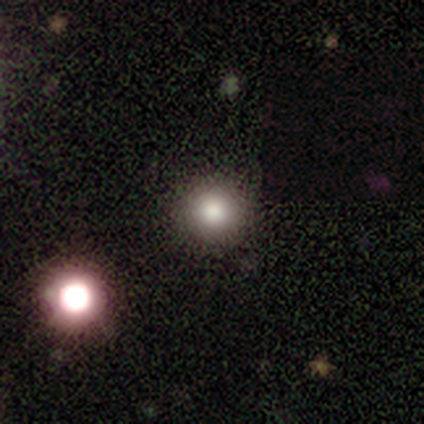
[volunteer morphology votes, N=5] This appears to be a smooth galaxy with no disk features (40%, tied with featured or disk) that is round (100%). Merging: none (100%).